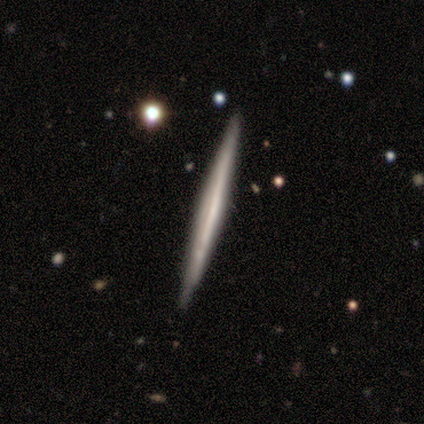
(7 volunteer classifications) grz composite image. It shows a featured or disk galaxy (71%) viewed edge-on (100%) with no central bulge (100%). Merging: none (100%).